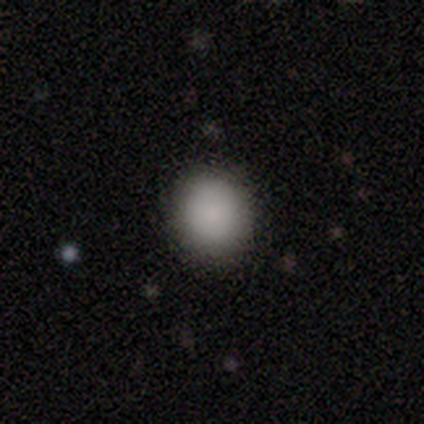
Morphology: type=smooth (93%); roundness=round (87%); merging=none (95%).